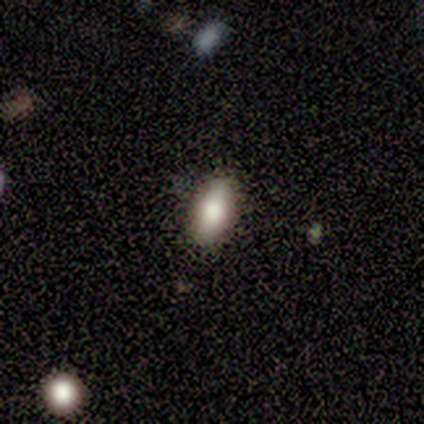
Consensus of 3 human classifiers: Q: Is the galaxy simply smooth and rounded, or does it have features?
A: smooth — 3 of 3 (100%).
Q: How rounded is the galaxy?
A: in between — 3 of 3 (100%).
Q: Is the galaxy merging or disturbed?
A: none — 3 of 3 (100%).